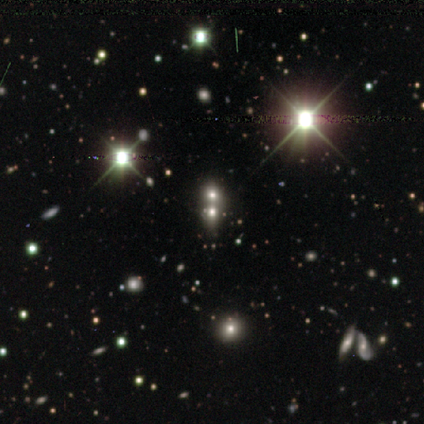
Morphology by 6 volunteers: This appears to be a star or artifact, not a galaxy (67%).